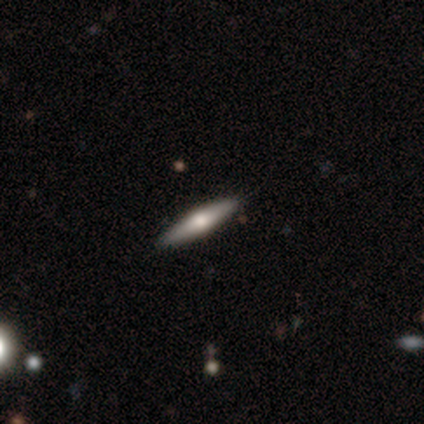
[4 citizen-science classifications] Smooth or featured?
  - star or artifact: 50% *
  - smooth: 25%
  - featured or disk: 25%